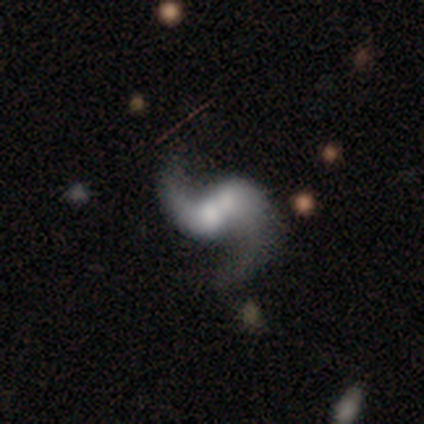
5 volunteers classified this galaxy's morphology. type=featured or disk (80%); edge-on=no (100%); bar=weak (50%); spiral arms=yes (100%); winding=loose (75%); arm count=2 (100%); bulge=moderate (50%); merging=merger (80%).